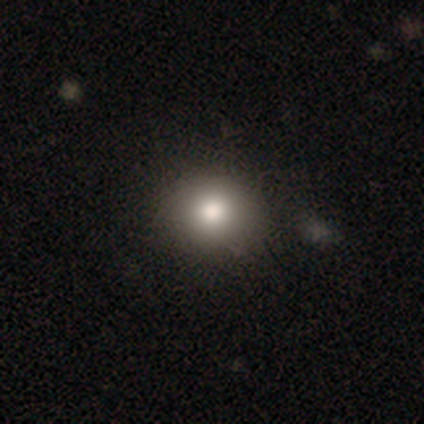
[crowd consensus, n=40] Q: Smooth or featured?
A: smooth (72%); runner-up: star or artifact (18%)
Q: How rounded?
A: round (76%); runner-up: in between (24%)
Q: Merging?
A: none (85%); runner-up: minor disturbance (12%)